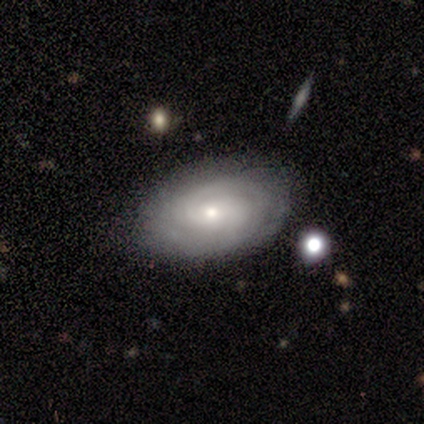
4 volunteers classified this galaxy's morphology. Smooth or featured? featured or disk (75%)
Edge-on disk? no (67%)
Bar? no (100%)
Spiral arms? yes (100%)
Spiral winding? tight (100%)
Spiral arm count? 2 (50%, tied with can't tell)
Bulge size? small (100%)
Merging? minor disturbance (50%)